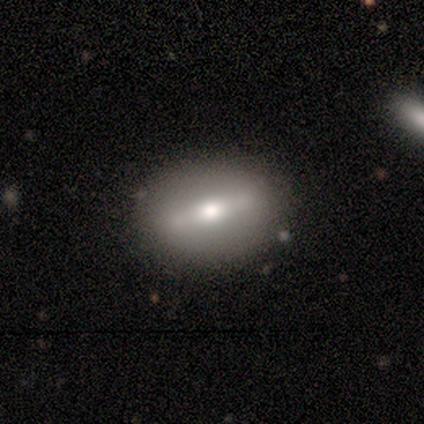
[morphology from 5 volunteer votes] smooth-or-featured: featured or disk: 80% | smooth: 20% | star or artifact: 0%
  disk-edge-on: no: 75% | yes: 25%
    bar: strong: 100% | weak: 0% | no: 0%
    has-spiral-arms: no: 100% | yes: 0%
    bulge-size: moderate: 100% | dominant: 0% | large: 0% | small: 0% | none: 0%
  merging: none: 60% | minor disturbance: 40% | major disturbance: 0% | merger: 0%